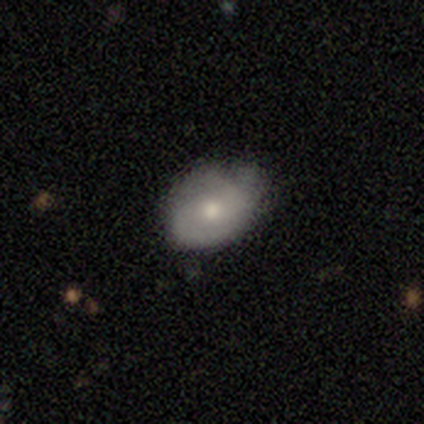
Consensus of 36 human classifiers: smooth_or_featured: smooth (p=0.50) [alt: featured or disk p=0.39]
how_rounded: in between (p=0.89) [alt: round p=0.11]
merging: none (p=0.72) [alt: minor disturbance p=0.25]